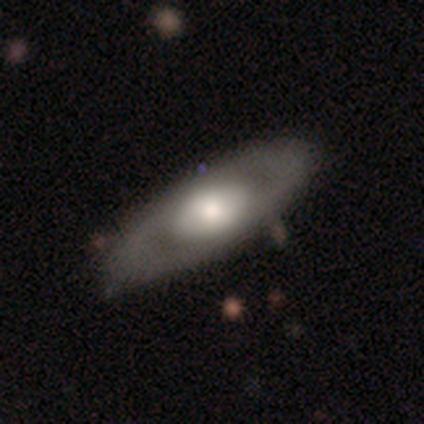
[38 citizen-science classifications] Overall: featured or disk (74%). Edge-on disk: no (86%). Bar: no (83%). Spiral arms: no (75%). Bulge size: large (46%; moderate 29%). Merging: none (53%).